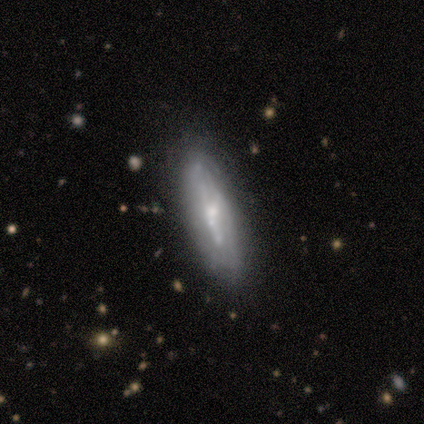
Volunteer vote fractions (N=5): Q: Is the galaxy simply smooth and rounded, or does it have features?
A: featured or disk — 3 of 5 (60%).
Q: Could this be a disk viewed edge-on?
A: yes — 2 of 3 (67%).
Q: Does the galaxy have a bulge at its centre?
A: rounded — 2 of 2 (100%).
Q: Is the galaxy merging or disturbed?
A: minor disturbance — 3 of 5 (60%).